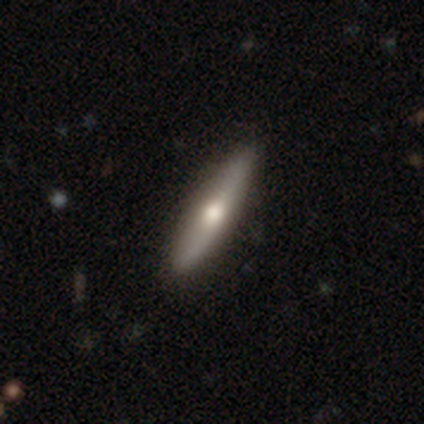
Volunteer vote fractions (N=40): Smooth or featured? 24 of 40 (60%) said featured or disk. Edge-on disk? 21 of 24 (88%) said yes. Edge-on bulge? 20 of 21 (95%) said rounded. Merging? 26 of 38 (68%) said none.